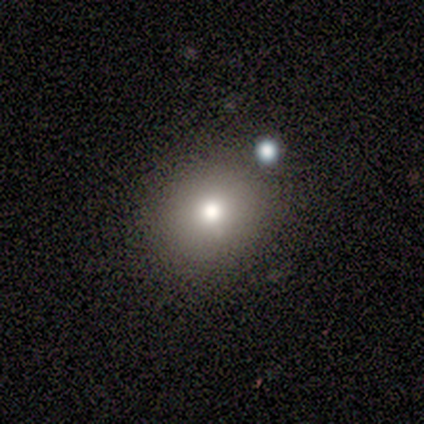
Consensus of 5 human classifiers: Overall: smooth (60%; featured or disk 20%). How rounded: round (100%). Merging: none (75%).